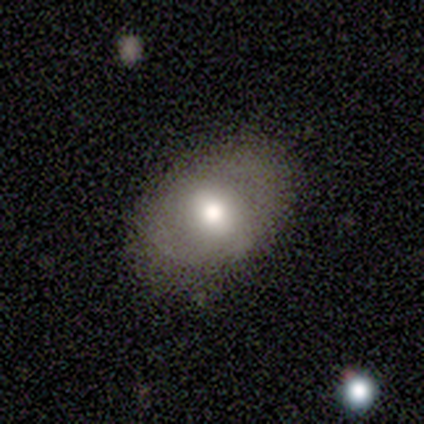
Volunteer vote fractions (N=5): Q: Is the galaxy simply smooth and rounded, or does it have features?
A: smooth — 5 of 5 (100%).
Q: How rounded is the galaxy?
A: in between — 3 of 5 (60%).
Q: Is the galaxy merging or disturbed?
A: none — 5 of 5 (100%).